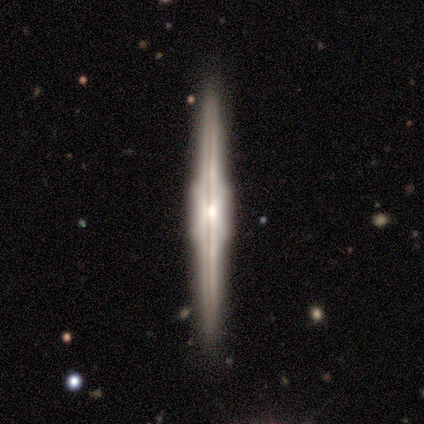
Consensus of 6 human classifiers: Q: Smooth or featured?
A: featured or disk (100%)
Q: Edge-on disk?
A: yes (100%)
Q: Edge-on bulge?
A: boxy (83%); runner-up: rounded (17%)
Q: Merging?
A: none (83%); runner-up: minor disturbance (17%)